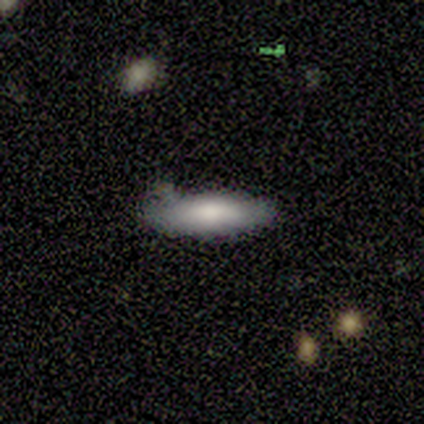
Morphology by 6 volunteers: smooth-or-featured: smooth: 50% (tied) | featured or disk: 50% (tied) | star or artifact: 0%
  how-rounded: in between: 67% | cigar-shaped: 33% | round: 0%
  merging: none: 50% | minor disturbance: 33% | major disturbance: 17% | merger: 0%